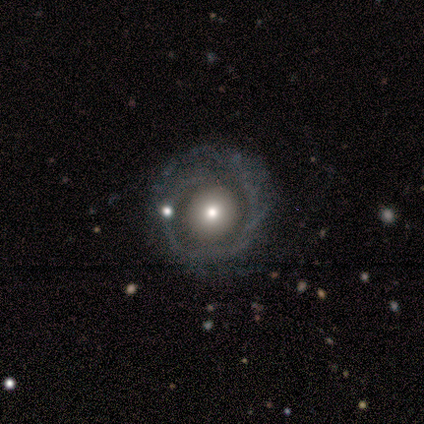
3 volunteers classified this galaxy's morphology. Overall: featured or disk (67%; smooth 33%). Edge-on disk: no (100%). Bar: no (100%). Spiral arms: yes (50%, tied with no). Spiral arm count: can't tell (100%). Spiral winding: tight (100%). Bulge size: moderate (100%). Merging: none (67%; minor disturbance 33%).